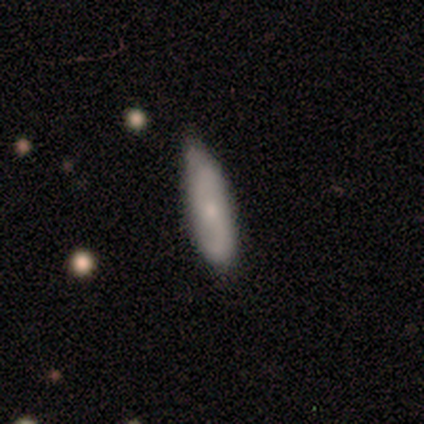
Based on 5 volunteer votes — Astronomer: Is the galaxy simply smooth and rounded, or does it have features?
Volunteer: smooth — 80%.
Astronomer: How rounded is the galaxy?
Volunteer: in between — 75%.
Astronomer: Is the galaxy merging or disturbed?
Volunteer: none — 80%.